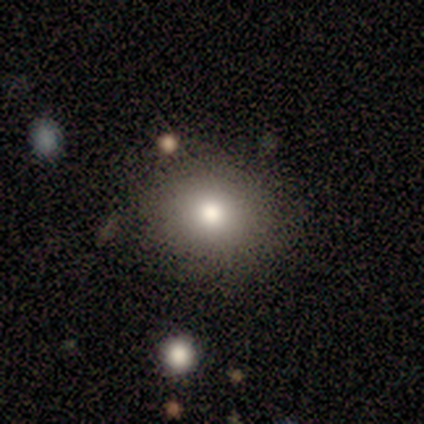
Morphology: type=smooth (60%); roundness=round (67%); merging=none (100%).